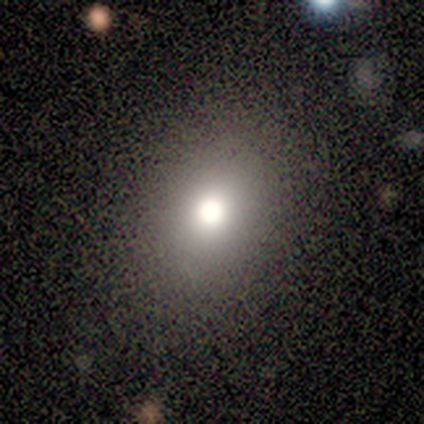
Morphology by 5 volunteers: A smooth galaxy with no disk features (60%) that is round (100%). Merging: none (100%).